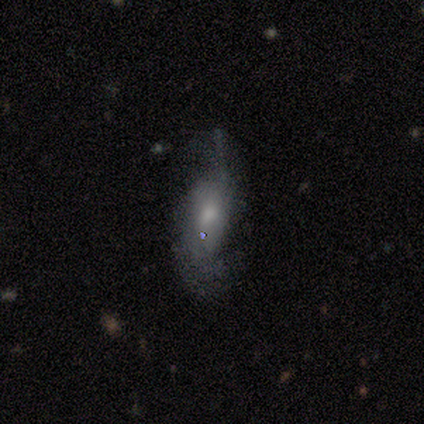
Smooth or featured? 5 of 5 (100%) said featured or disk. Edge-on disk? 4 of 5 (80%) said no. Bar? 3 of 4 (75%) said no. Spiral arms? 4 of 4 (100%) said yes. Spiral winding? 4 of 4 (100%) said loose. Spiral arm count? 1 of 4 (25%, tied with 3, 4 and can't tell) said 2. Bulge size? 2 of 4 (50%) said large. Merging? 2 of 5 (40%, tied with major disturbance) said none.